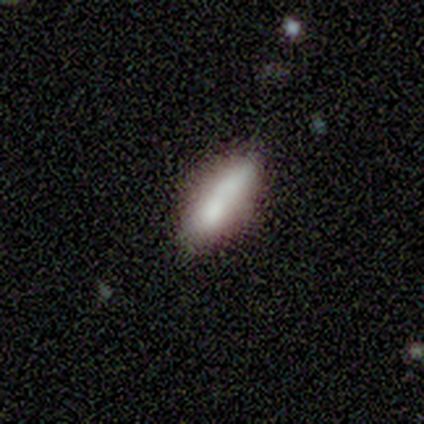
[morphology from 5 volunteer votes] type=smooth (80%); roundness=in between (50%, tied with cigar-shaped); merging=none (60%).